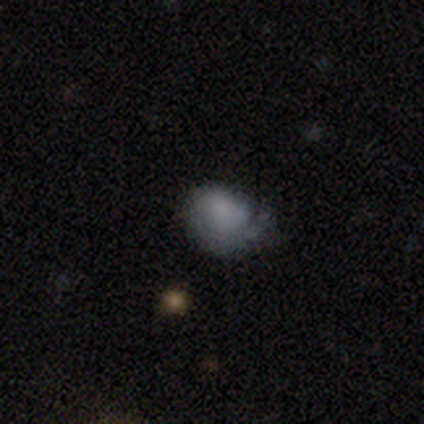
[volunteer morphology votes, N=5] This is clearly a smooth galaxy (80%). How rounded: likely round (75%). Merging: likely minor disturbance (60%).